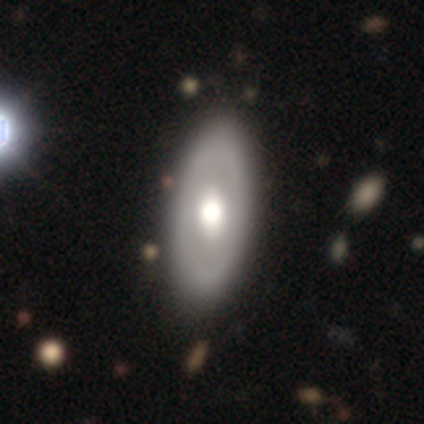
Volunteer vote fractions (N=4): This appears to be a smooth galaxy with no disk features (75%) that is in between round and cigar-shaped (100%). Merging: none (100%).